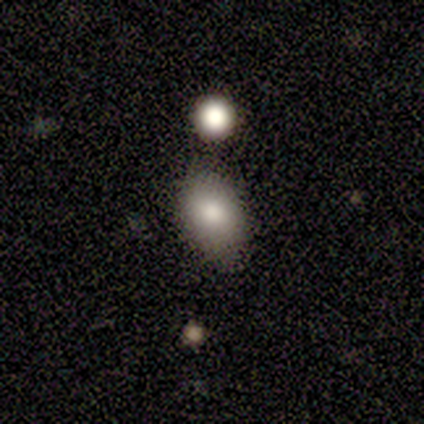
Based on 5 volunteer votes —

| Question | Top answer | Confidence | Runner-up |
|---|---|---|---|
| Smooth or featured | smooth | 60% | featured or disk (40%) |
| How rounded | in between | 100% | — |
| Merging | none | 60% | minor disturbance (40%) |